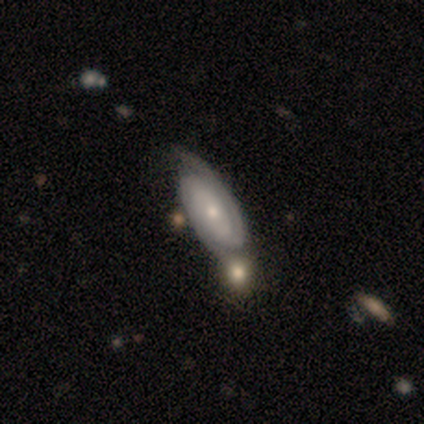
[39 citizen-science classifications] smooth-or-featured: featured or disk: 90% | smooth: 10% | star or artifact: 0%
  disk-edge-on: no: 100% | yes: 0%
    bar: no: 66% | weak: 23% | strong: 11%
    has-spiral-arms: yes: 91% | no: 9%
      spiral-winding: tight: 59% | medium: 34% | loose: 6%
      spiral-arm-count: 2: 81% | can't tell: 16% | 1: 3% | 3: 0% | 4: 0% | more than 4: 0%
    bulge-size: small: 66% | moderate: 29% | dominant: 3% | none: 3% | large: 0%
  merging: none: 56% | merger: 15% | minor disturbance: 13% | major disturbance: 0%